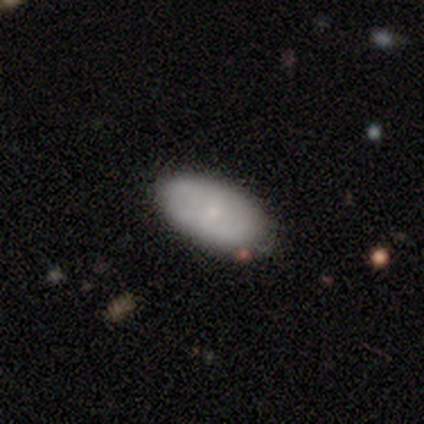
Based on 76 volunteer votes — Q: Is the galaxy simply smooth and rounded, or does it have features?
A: smooth — 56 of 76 (74%).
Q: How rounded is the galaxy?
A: in between — 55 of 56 (98%).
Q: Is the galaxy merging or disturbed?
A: none — 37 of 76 (49%).